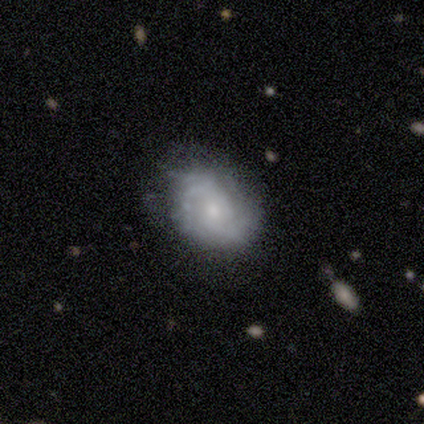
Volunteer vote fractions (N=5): Smooth or featured? 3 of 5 (60%) said featured or disk. Edge-on disk? 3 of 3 (100%) said no. Bar? 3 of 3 (100%) said no. Spiral arms? 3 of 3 (100%) said yes. Spiral winding? 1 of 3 (33%, tied with medium and loose) said tight. Spiral arm count? 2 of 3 (67%) said 2. Bulge size? 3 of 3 (100%) said small. Merging? 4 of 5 (80%) said none.